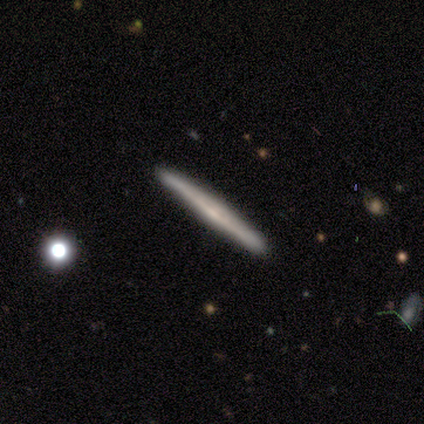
Smooth or featured? featured or disk (63%)
Edge-on disk? yes (100%)
Edge-on bulge? none (62%)
Merging? none (89%)